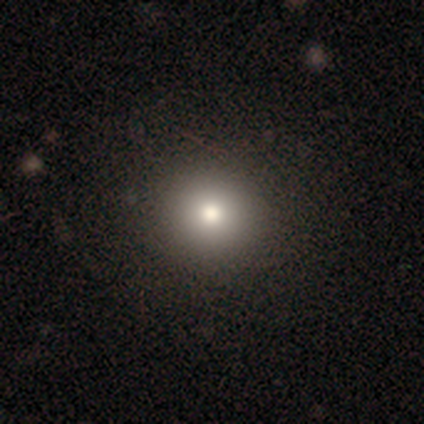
Smooth or featured: smooth — 100%
How rounded: round — 60% (in between — 40%)
Merging: none — 80% (minor disturbance — 20%)